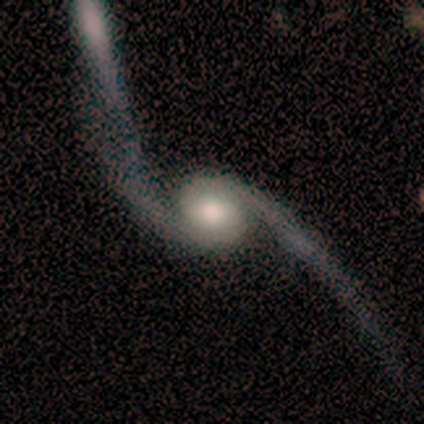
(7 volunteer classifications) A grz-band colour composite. It shows a featured or disk galaxy (100%) with no bar (57%), 2 (100%) loose (100%) spiral arms (100%) and a moderate central bulge (43%). Merging: none (71%).